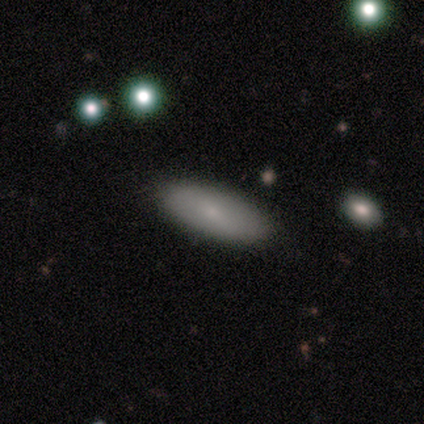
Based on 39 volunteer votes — smooth-or-featured: smooth: 77% | featured or disk: 15% | star or artifact: 8%
  how-rounded: in between: 77% | cigar-shaped: 23% | round: 0%
  merging: none: 89% | minor disturbance: 11% | major disturbance: 0% | merger: 0%